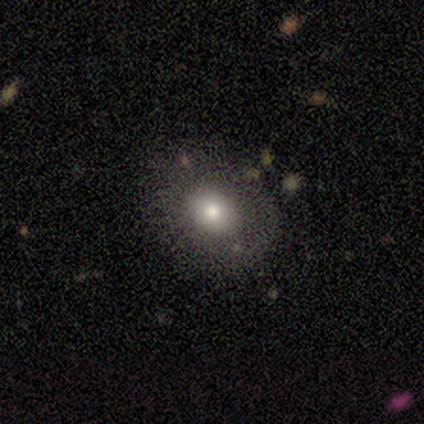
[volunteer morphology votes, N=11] smooth-or-featured: featured or disk: 45% | smooth: 36% | star or artifact: 18%
  disk-edge-on: no: 80% | yes: 20%
    bar: no: 100% | strong: 0% | weak: 0%
    has-spiral-arms: no: 100% | yes: 0%
    bulge-size: small: 75% | moderate: 25% | dominant: 0% | large: 0% | none: 0%
  merging: none: 67% | minor disturbance: 33% | major disturbance: 0% | merger: 0%